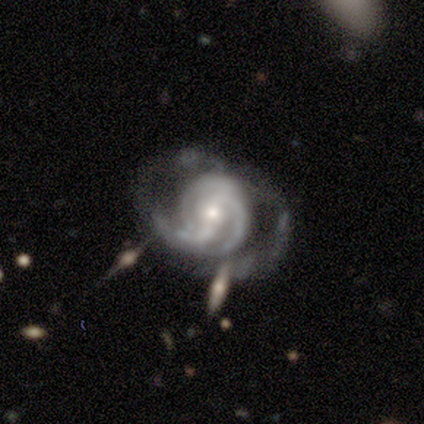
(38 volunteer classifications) This appears to be a featured or disk galaxy (87%) with a weak bar (53%), 3 (31%) tight (47%) spiral arms (100%) and a small central bulge (81%). Merging: none (51%).